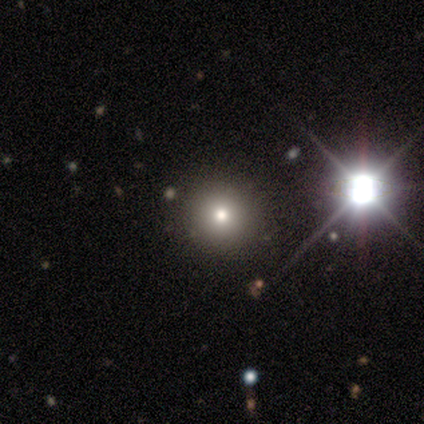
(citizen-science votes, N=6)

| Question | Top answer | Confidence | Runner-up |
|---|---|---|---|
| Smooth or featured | smooth | 67% | star or artifact (33%) |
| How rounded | round | 100% | — |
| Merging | none | 100% | — |